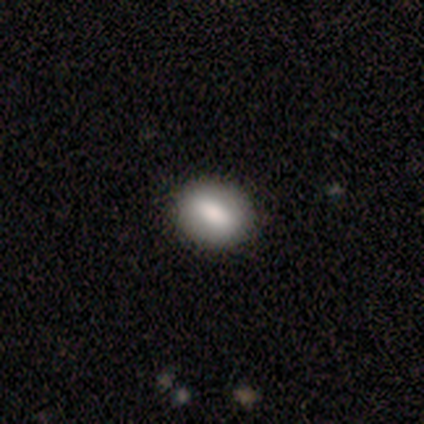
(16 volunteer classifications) smooth-or-featured: smooth: 75% | featured or disk: 19% | star or artifact: 6%
  how-rounded: round: 50% | in between: 42% | cigar-shaped: 8%
  merging: none: 100% | minor disturbance: 0% | major disturbance: 0% | merger: 0%